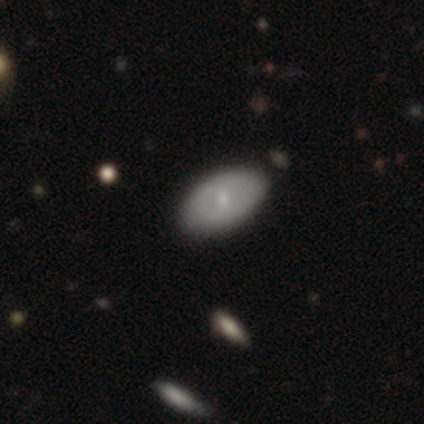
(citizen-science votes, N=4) Smooth or featured?
  - smooth: 50% * (tied)
  - featured or disk: 50% * (tied)
  - star or artifact: 0%
How rounded?
  - in between: 100% *
  - round: 0%
  - cigar-shaped: 0%
Merging?
  - none: 100% *
  - minor disturbance: 0%
  - major disturbance: 0%
  - merger: 0%